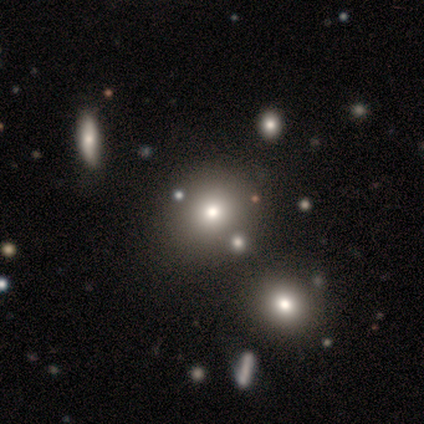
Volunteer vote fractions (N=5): smooth_or_featured: smooth (p=0.60) [alt: star or artifact p=0.40]
how_rounded: round (p=1.00)
merging: none (p=0.67) [alt: minor disturbance p=0.33]